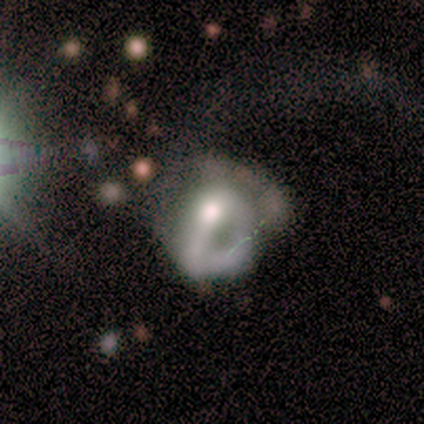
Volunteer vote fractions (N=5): Smooth or featured?
  - featured or disk: 80% *
  - smooth: 20%
  - star or artifact: 0%
Edge-on disk?
  - no: 100% *
  - yes: 0%
Bar?
  - strong: 50% * (tied)
  - no: 50% * (tied)
  - weak: 0%
Spiral arms?
  - yes: 50% * (tied)
  - no: 50% * (tied)
Spiral winding?
  - tight: 50% * (tied)
  - medium: 50% * (tied)
  - loose: 0%
Spiral arm count?
  - 2: 50% * (tied)
  - 3: 50% * (tied)
  - 1: 0%
  - 4: 0%
  - more than 4: 0%
  - can't tell: 0%
Bulge size?
  - large: 25% * (tied)
  - moderate: 25% * (tied)
  - small: 25% * (tied)
  - none: 25% * (tied)
  - dominant: 0%
Merging?
  - major disturbance: 60% *
  - none: 20%
  - minor disturbance: 20%
  - merger: 0%